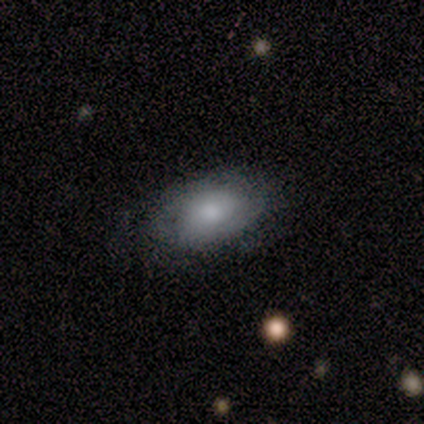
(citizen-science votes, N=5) Smooth or featured: smooth — 60% (featured or disk — 20%)
How rounded: in between — 100%
Merging: major disturbance — 50% (none — 25%)